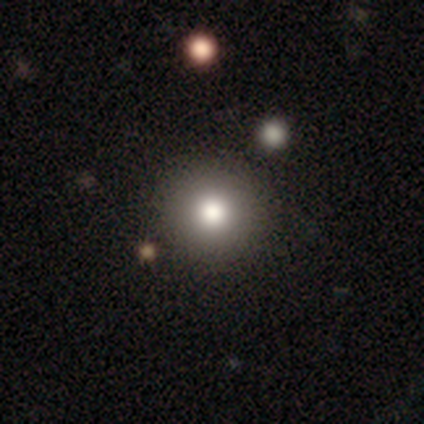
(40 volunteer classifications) smooth 70%, featured or disk 15%, star or artifact 15%. Down the decision tree: how rounded — round (100%); merging — none (94%).